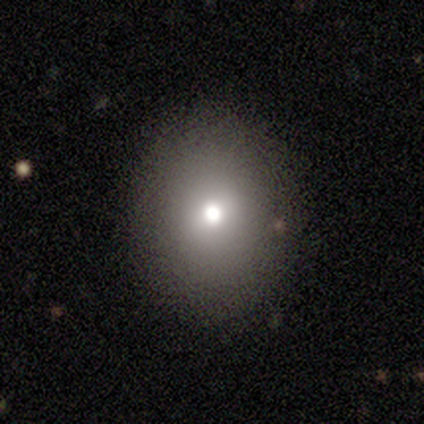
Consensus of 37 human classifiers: Smooth or featured?
  - smooth: 84% *
  - featured or disk: 11%
  - star or artifact: 5%
How rounded?
  - round: 55% *
  - in between: 45%
  - cigar-shaped: 0%
Merging?
  - none: 100% *
  - minor disturbance: 0%
  - major disturbance: 0%
  - merger: 0%